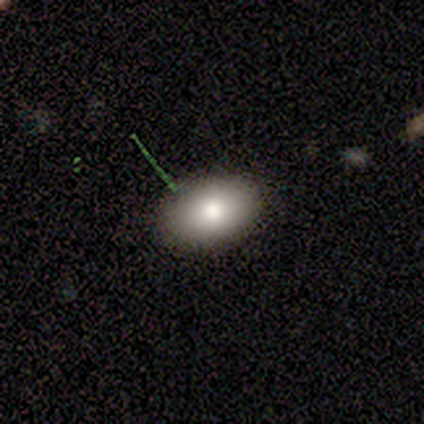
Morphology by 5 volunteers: A star or artifact, not a galaxy (60%).

Vote fractions:
- Smooth or featured? star or artifact: 60% / smooth: 20% / featured or disk: 20%